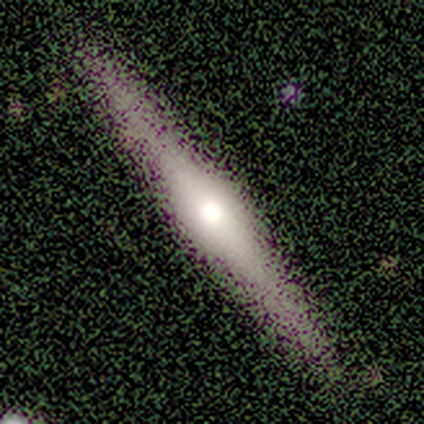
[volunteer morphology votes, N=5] Smooth or featured?
  - featured or disk: 80% *
  - smooth: 20%
  - star or artifact: 0%
Edge-on disk?
  - yes: 100% *
  - no: 0%
Edge-on bulge?
  - rounded: 100% *
  - boxy: 0%
  - none: 0%
Merging?
  - none: 100% *
  - minor disturbance: 0%
  - major disturbance: 0%
  - merger: 0%